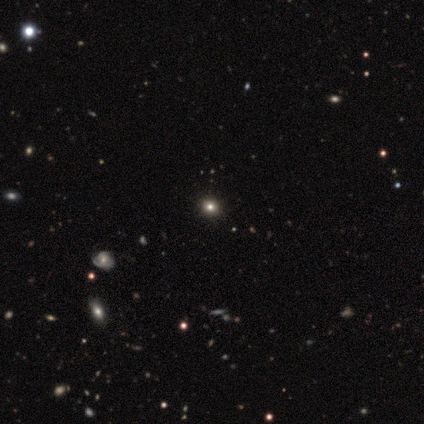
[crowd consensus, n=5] Overall: star or artifact (80%).